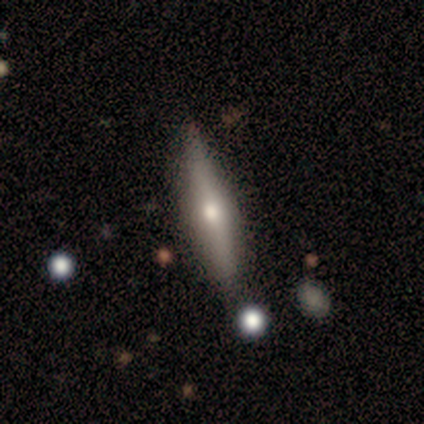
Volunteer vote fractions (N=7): Q: Smooth or featured?
A: featured or disk (57%); runner-up: smooth (29%)
Q: Edge-on disk?
A: yes (100%)
Q: Edge-on bulge?
A: rounded (100%)
Q: Merging?
A: none (100%)